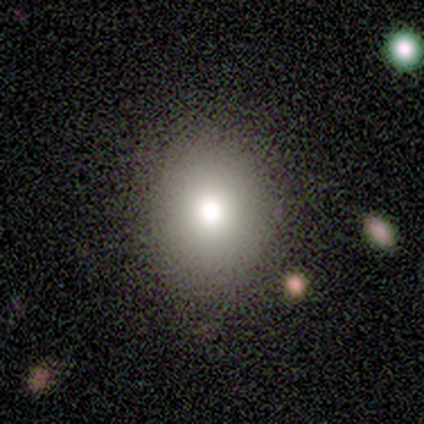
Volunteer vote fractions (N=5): Smooth or featured: smooth — 80% (featured or disk — 20%)
How rounded: round — 75% (in between — 25%)
Merging: none — 100%